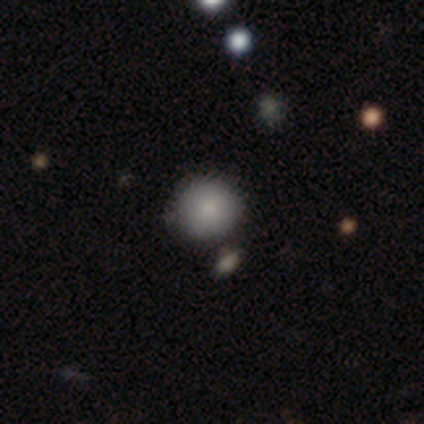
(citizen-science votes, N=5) A smooth galaxy with no disk features (60%) that is round (100%).

Vote fractions:
- Smooth or featured? smooth: 60% / featured or disk: 20% / star or artifact: 20%
- How rounded? round: 100% / in between: 0% / cigar-shaped: 0%
- Merging? none: 75% / merger: 25% / minor disturbance: 0% / major disturbance: 0%